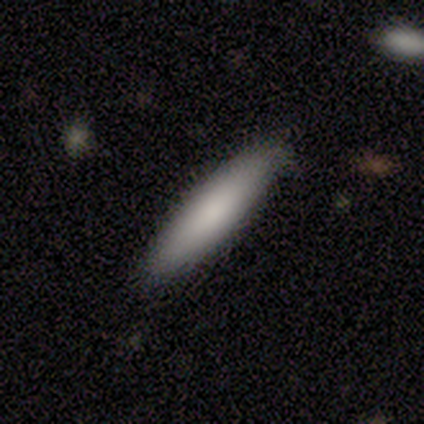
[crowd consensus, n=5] A smooth galaxy with no disk features (80%) that is cigar-shaped (100%). Merging: none (80%).